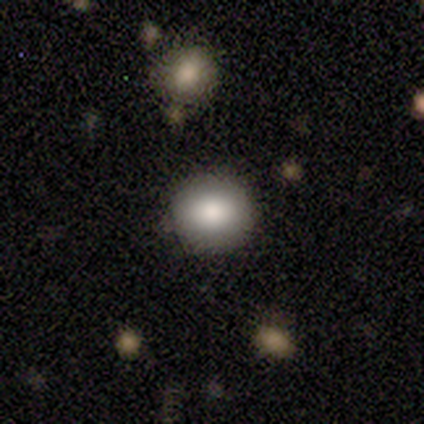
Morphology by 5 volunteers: Volunteers were most divided on "how rounded": round: 75%, in between: 25%, cigar-shaped: 0%. More confident: merging — none (100%); smooth or featured — smooth (80%).